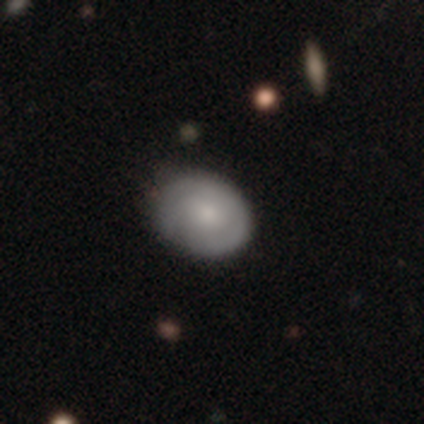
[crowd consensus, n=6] Volunteers were most divided on "merging": none: 67%, minor disturbance: 33%, major disturbance: 0%, merger: 0%. More confident: smooth or featured — smooth (83%); how rounded — in between (80%).